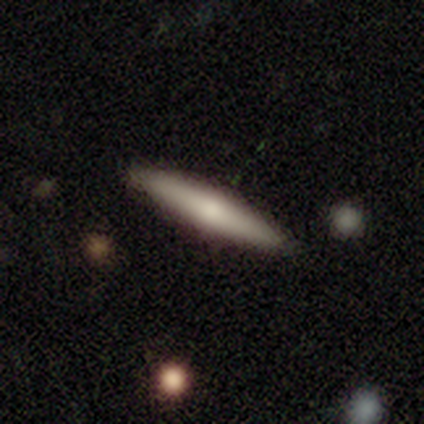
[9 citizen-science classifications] smooth_or_featured: smooth (p=0.67) [alt: featured or disk p=0.33]
how_rounded: cigar-shaped (p=1.00)
merging: none (p=1.00)